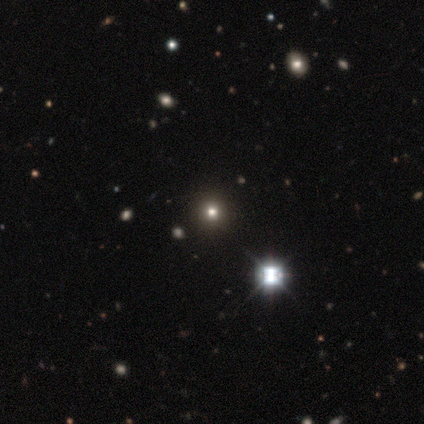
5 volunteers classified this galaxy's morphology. Smooth or featured? 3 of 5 (60%) said smooth. How rounded? 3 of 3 (100%) said round. Merging? 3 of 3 (100%) said none.